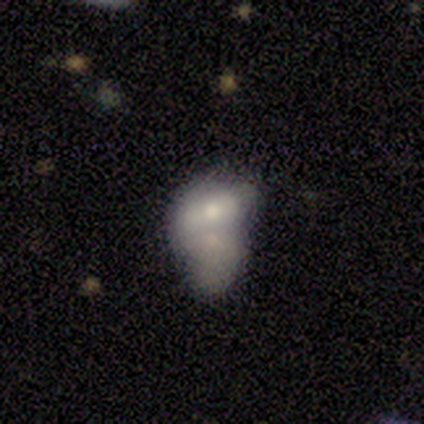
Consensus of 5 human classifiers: Overall: smooth (60%; featured or disk 40%). How rounded: in between (100%). Merging: merger (40%; none 20%).